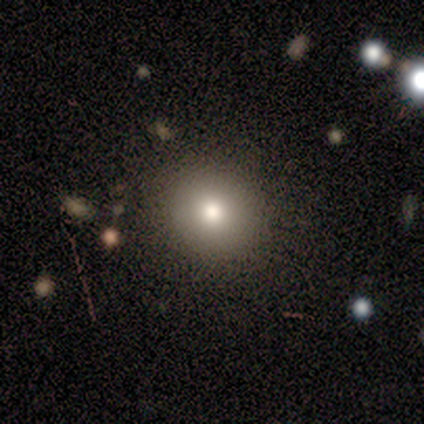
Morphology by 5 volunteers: Smooth or featured?
  - smooth: 60% *
  - featured or disk: 20%
  - star or artifact: 20%
How rounded?
  - round: 100% *
  - in between: 0%
  - cigar-shaped: 0%
Merging?
  - none: 100% *
  - minor disturbance: 0%
  - major disturbance: 0%
  - merger: 0%